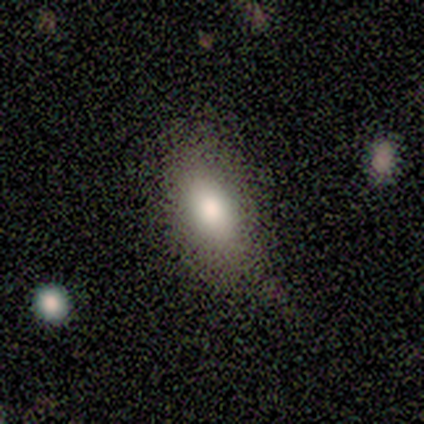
This appears to be a smooth galaxy with no disk features (100%) that is in between round and cigar-shaped (100%). Merging: minor disturbance (40%).